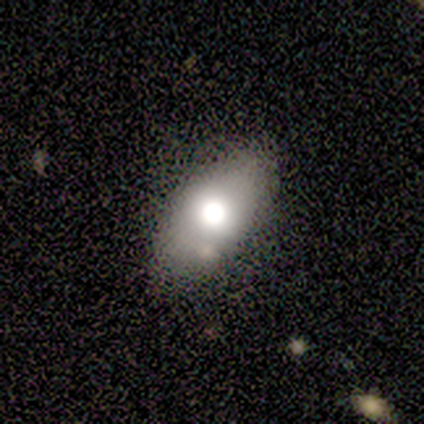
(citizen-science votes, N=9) Smooth or featured? 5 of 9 (56%) said smooth. How rounded? 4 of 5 (80%) said in between. Merging? 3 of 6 (50%) said none.